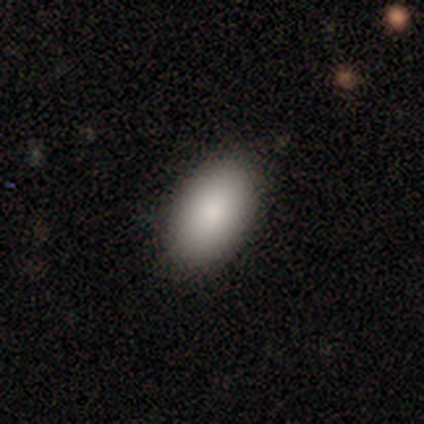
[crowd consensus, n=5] smooth_or_featured: smooth (p=1.00)
how_rounded: in between (p=1.00)
merging: none (p=0.80) [alt: minor disturbance p=0.20]